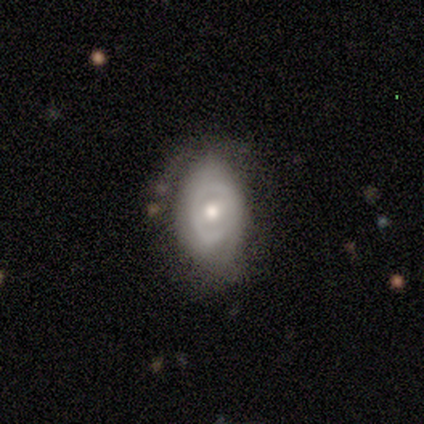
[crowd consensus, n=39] Q: Smooth or featured?
A: featured or disk (62%); runner-up: smooth (31%)
Q: Edge-on disk?
A: no (100%)
Q: Bar?
A: no (54%); runner-up: weak (33%)
Q: Spiral arms?
A: yes (50%); tied with: no (50%)
Q: Spiral winding?
A: tight (50%); runner-up: medium (33%)
Q: Spiral arm count?
A: 2 (50%); runner-up: can't tell (42%)
Q: Bulge size?
A: moderate (75%); runner-up: small (21%)
Q: Merging?
A: none (72%); runner-up: minor disturbance (22%)